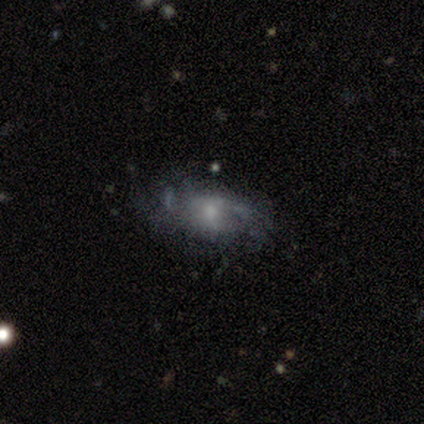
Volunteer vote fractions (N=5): smooth_or_featured: featured or disk (p=0.60) [alt: smooth p=0.40]
disk_edge_on: no (p=1.00)
bar: no (p=1.00)
has_spiral_arms: yes (p=1.00)
spiral_winding: tight (p=0.33) [tied with: medium p=0.33, loose p=0.33]
spiral_arm_count: 2 (p=0.67) [alt: 3 p=0.33]
bulge_size: large (p=0.33) [tied with: moderate p=0.33, small p=0.33]
merging: none (p=0.80) [alt: minor disturbance p=0.20]